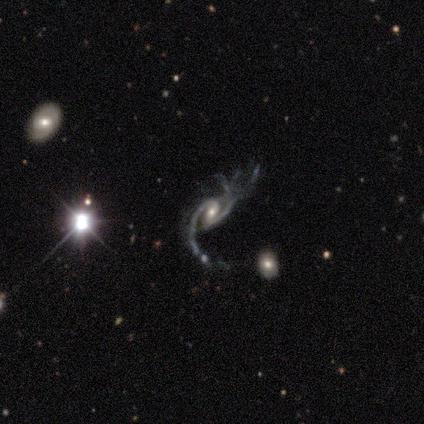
Smooth or featured? featured or disk (95%)
Edge-on disk? no (100%)
Bar? weak (55%)
Spiral arms? yes (100%)
Spiral winding? loose (45%)
Spiral arm count? 2 (82%)
Bulge size? moderate (47%)
Merging? major disturbance (66%)